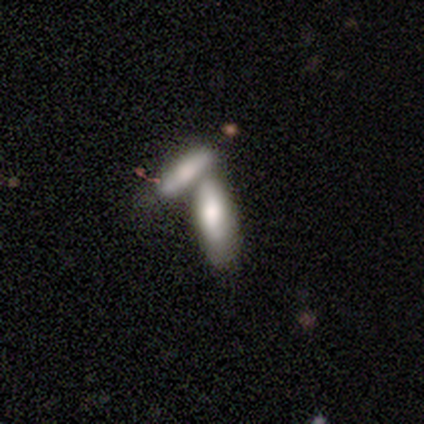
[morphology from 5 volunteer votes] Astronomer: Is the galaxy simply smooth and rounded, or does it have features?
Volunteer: smooth — 60% (runner-up: featured or disk, 40%).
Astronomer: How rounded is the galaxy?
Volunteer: in between — 100%.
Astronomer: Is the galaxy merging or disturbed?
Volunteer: none — 60% (runner-up: merger, 40%).